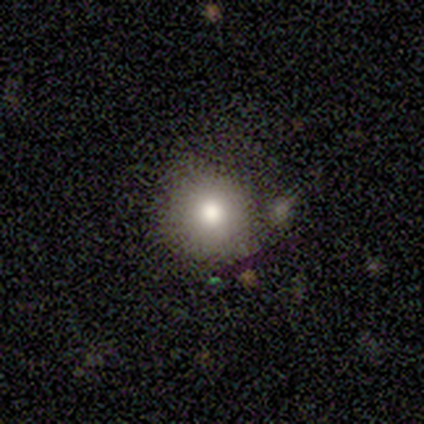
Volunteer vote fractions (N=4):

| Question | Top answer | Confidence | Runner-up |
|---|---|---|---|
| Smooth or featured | smooth | 75% | featured or disk (25%) |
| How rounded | round | 100% | — |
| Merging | none | 75% | minor disturbance (25%) |